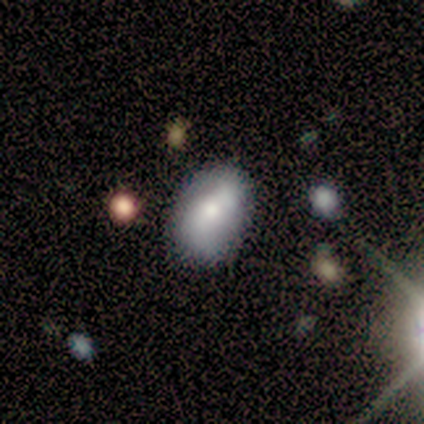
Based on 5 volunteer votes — Volunteers were most divided on "how rounded": in between: 75%, round: 25%, cigar-shaped: 0%. More confident: smooth or featured — smooth (80%); merging — none (80%).